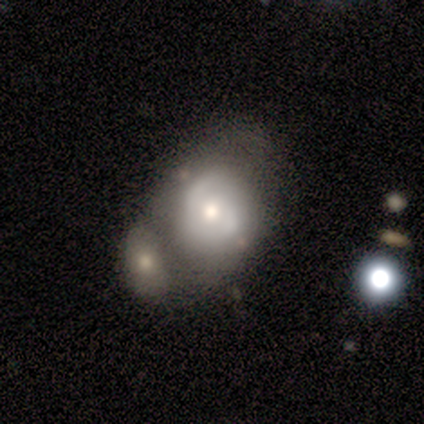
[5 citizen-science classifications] This appears to be a featured or disk galaxy (60%) with no bar (100%), no spiral arms (100%) and a moderate central bulge (67%). Merging: none (33%, tied with minor disturbance and merger).